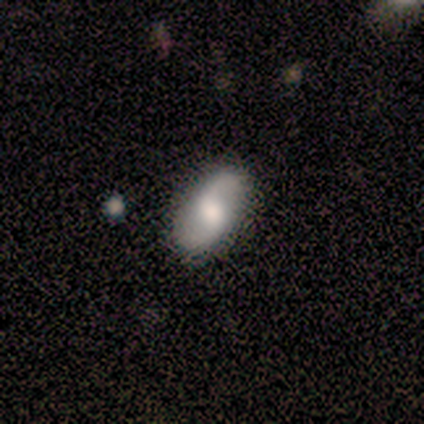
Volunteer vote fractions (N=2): Overall: smooth (50%, tied with featured or disk). How rounded: cigar-shaped (100%). Merging: none (50%, tied with minor disturbance).